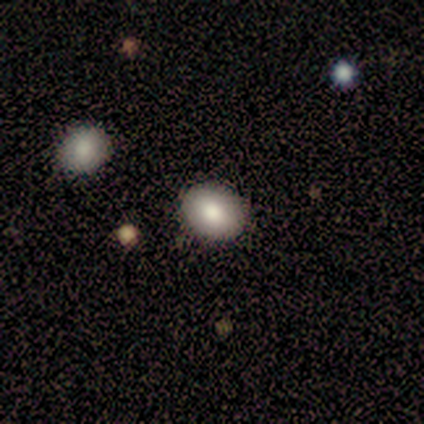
This appears to be a smooth galaxy with no disk features (78%) that is round (54%). Merging: none (97%).